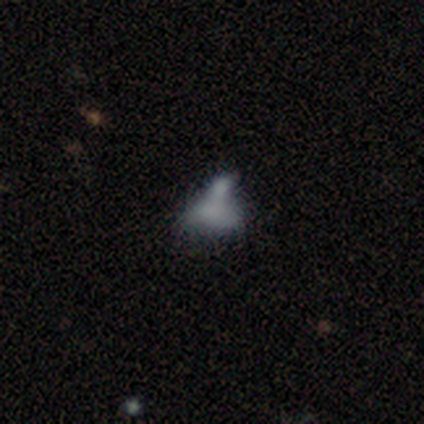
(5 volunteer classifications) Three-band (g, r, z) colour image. It shows a smooth galaxy with no disk features (60%) that is in between round and cigar-shaped (100%). Merging: none (60%).